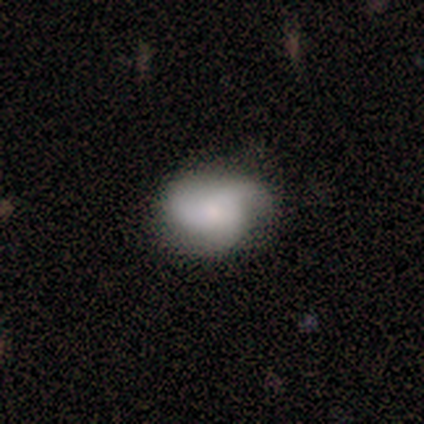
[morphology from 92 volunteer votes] This appears to be a featured or disk galaxy (50%) with no bar (91%), 3 (73%) loose (41%) spiral arms (82%) and a small central bulge (58%). Merging: none (65%).